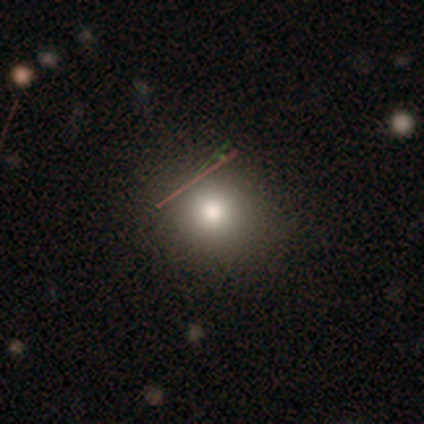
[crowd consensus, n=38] Smooth or featured? smooth (66%)
How rounded? round (84%)
Merging? none (87%)